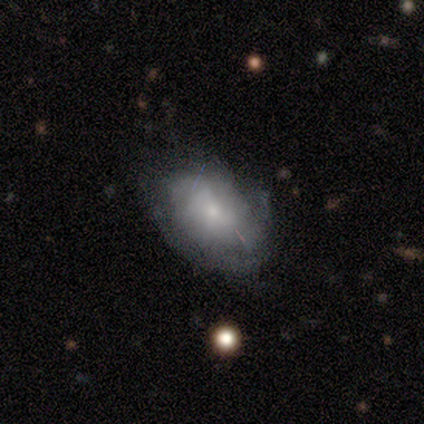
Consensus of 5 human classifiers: smooth-or-featured: smooth: 60% | featured or disk: 40% | star or artifact: 0%
  how-rounded: in between: 100% | round: 0% | cigar-shaped: 0%
  merging: minor disturbance: 60% | none: 40% | major disturbance: 0% | merger: 0%